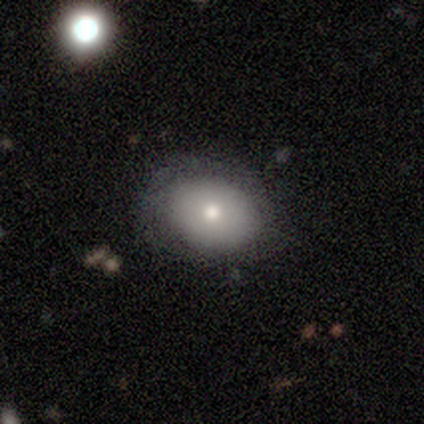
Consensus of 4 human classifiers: This is likely a smooth galaxy (75%). How rounded: likely in between (67%). Merging: possibly none (50%).